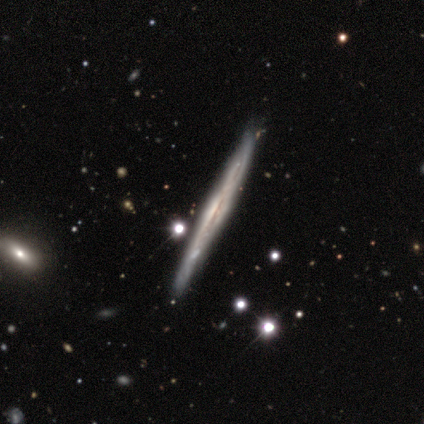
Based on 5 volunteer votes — A featured or disk galaxy (100%) viewed edge-on (100%) with no central bulge (60%).

Vote fractions:
- Smooth or featured? featured or disk: 100% / smooth: 0% / star or artifact: 0%
- Edge-on disk? yes: 100% / no: 0%
- Edge-on bulge? none: 60% / boxy: 20% / rounded: 20%
- Merging? none: 60% / minor disturbance: 20% / merger: 20% / major disturbance: 0%